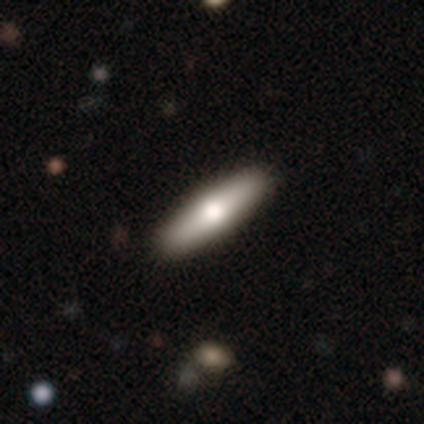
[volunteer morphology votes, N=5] This is likely a smooth galaxy (60%). How rounded: likely cigar-shaped (67%). Merging: clearly none (100%).